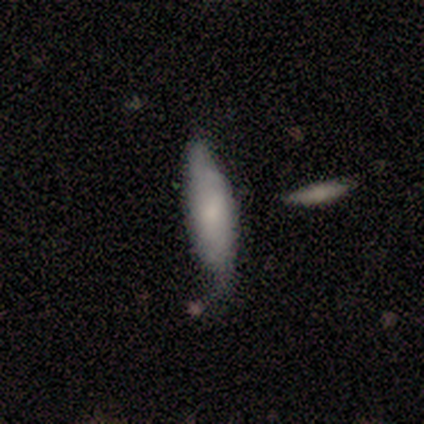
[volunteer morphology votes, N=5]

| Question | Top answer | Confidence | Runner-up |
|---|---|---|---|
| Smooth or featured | smooth | 80% | featured or disk (20%) |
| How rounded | in between | 75% | cigar-shaped (25%) |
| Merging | none | 80% | minor disturbance (20%) |